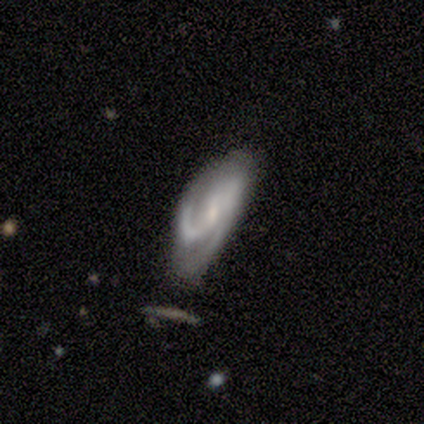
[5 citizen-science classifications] This appears to be a featured or disk galaxy (80%) with no bar (75%), medium (75%) spiral arms (100%) and a small central bulge (75%). Merging: minor disturbance (60%).